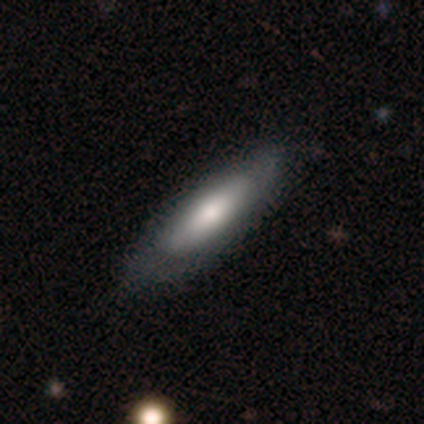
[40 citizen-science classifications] Smooth or featured: smooth — 57% (featured or disk — 35%)
How rounded: cigar-shaped — 65% (in between — 35%)
Merging: none — 76% (minor disturbance — 14%)